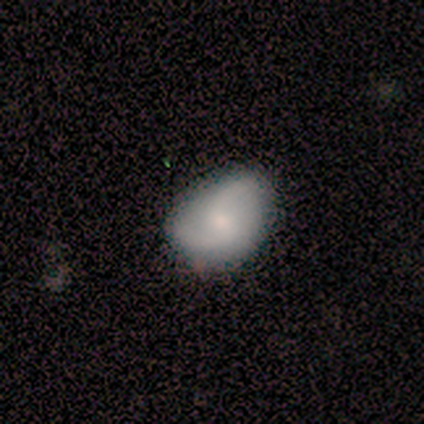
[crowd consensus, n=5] Volunteers were most divided on "spiral winding": medium: 67%, loose: 33%, tight: 0%. More confident: edge-on disk — no (100%); spiral arm count — 2 (100%); smooth or featured — featured or disk (80%); bar — no (75%); spiral arms — yes (75%); bulge size — small (75%); merging — none (75%).